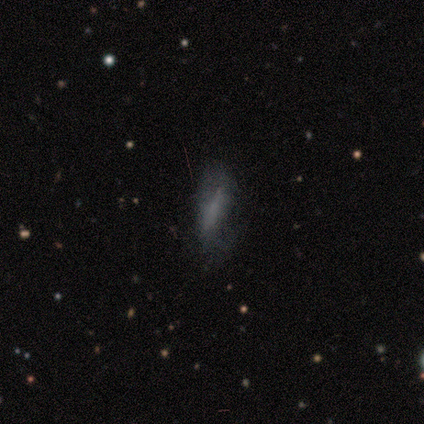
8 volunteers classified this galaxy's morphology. smooth-or-featured: smooth: 50% (tied) | featured or disk: 50% (tied) | star or artifact: 0%
  how-rounded: in between: 75% | cigar-shaped: 25% | round: 0%
  merging: minor disturbance: 50% | none: 38% | major disturbance: 12% | merger: 0%